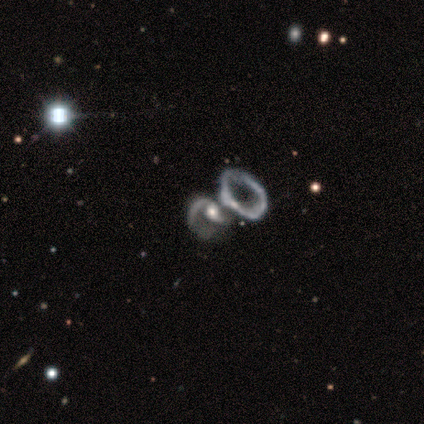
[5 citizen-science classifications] Smooth or featured? featured or disk (80%)
Edge-on disk? no (100%)
Bar? no (75%)
Spiral arms? yes (50%, tied with no)
Spiral winding? tight (50%, tied with loose)
Spiral arm count? can't tell (100%)
Bulge size? small (50%)
Merging? major disturbance (40%, tied with merger)